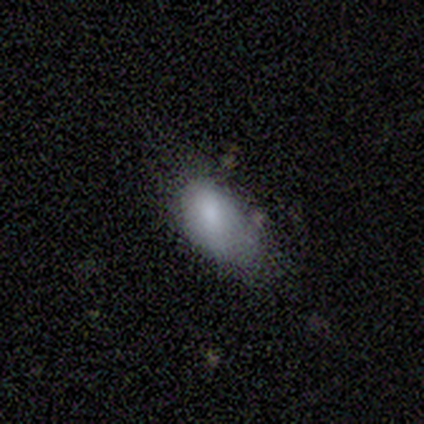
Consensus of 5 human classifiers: Smooth or featured? 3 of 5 (60%) said featured or disk. Edge-on disk? 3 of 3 (100%) said no. Bar? 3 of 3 (100%) said no. Spiral arms? 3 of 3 (100%) said no. Bulge size? 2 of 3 (67%) said moderate. Merging? 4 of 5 (80%) said minor disturbance.